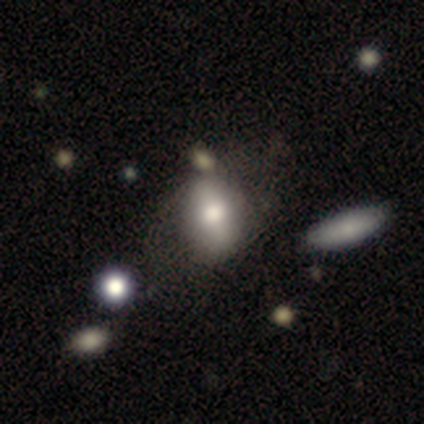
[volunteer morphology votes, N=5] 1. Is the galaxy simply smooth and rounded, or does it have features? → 100% smooth, 0% featured or disk, 0% star or artifact.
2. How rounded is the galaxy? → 80% in between, 20% round, 0% cigar-shaped.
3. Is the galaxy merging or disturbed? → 60% none, 40% minor disturbance, 0% major disturbance, 0% merger.